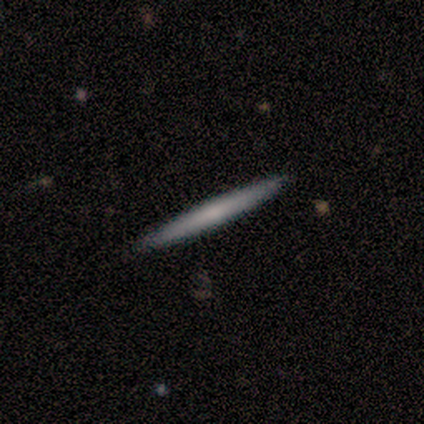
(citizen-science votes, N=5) Overall: smooth (60%; featured or disk 40%). How rounded: cigar-shaped (100%). Merging: none (100%).